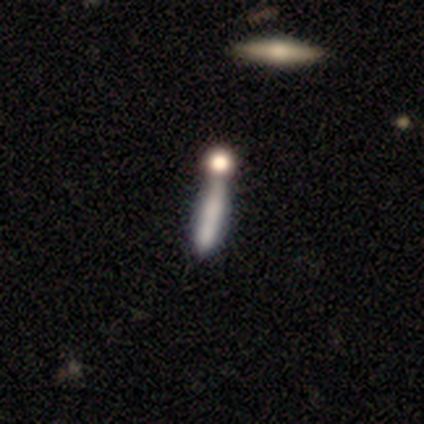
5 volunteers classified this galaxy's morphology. Volunteers were most divided on "merging" (2-way tie): none: 40%, merger: 40%, major disturbance: 20%, minor disturbance: 0%. More confident: how rounded — cigar-shaped (100%); smooth or featured — smooth (80%).